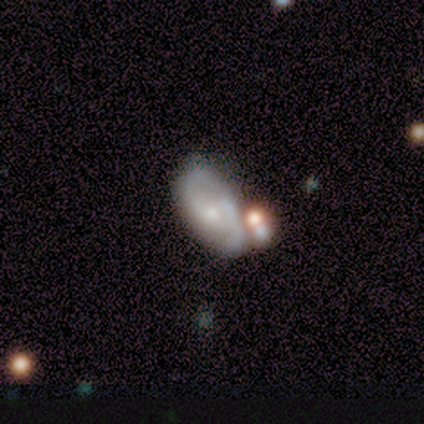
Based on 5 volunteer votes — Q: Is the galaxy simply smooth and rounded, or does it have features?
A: featured or disk — 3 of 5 (60%).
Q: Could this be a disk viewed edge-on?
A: no — 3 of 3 (100%).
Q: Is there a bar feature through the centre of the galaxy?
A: no — 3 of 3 (100%).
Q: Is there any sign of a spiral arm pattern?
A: no — 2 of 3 (67%).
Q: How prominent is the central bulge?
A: moderate — 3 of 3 (100%).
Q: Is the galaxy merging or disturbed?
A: none — 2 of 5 (40%, tied with minor disturbance).